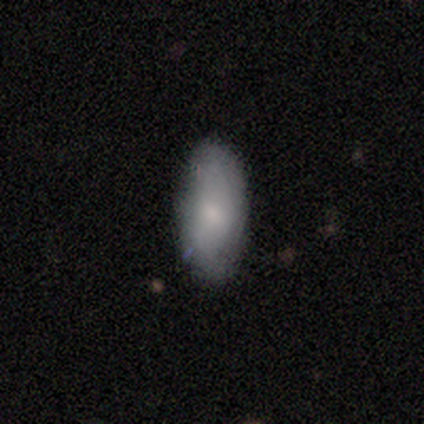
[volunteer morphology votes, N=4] smooth 100%, featured or disk 0%, star or artifact 0%. Down the decision tree: how rounded — in between (100%); merging — none (75%).